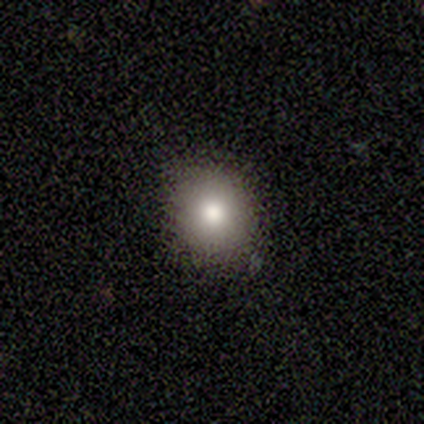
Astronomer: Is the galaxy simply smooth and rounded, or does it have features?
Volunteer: smooth — 100%.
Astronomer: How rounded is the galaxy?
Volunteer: round — 80%.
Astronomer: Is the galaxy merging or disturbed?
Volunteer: none — 80%.